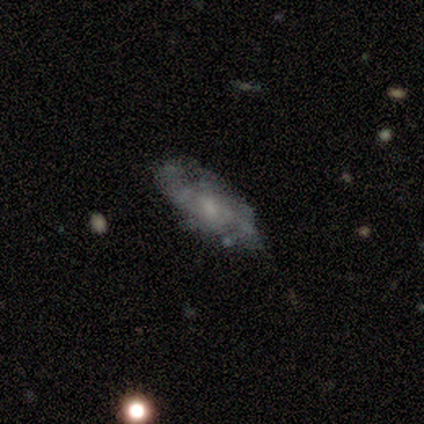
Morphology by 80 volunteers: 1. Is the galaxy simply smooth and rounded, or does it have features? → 71% featured or disk, 26% smooth, 2% star or artifact.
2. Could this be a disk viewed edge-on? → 95% no, 5% yes.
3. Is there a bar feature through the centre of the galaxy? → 56% no, 43% weak, 2% strong.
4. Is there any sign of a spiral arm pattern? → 80% yes, 20% no.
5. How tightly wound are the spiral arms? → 42% tight, 40% medium, 19% loose.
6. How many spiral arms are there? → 53% can't tell, 30% 2, 9% 4, 5% 1, 2% more than 4, 0% 3.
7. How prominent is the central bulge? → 50% small, 28% none, 19% moderate, 4% large, 0% dominant.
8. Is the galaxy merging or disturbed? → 22% none, 14% minor disturbance, 8% major disturbance, 8% merger.